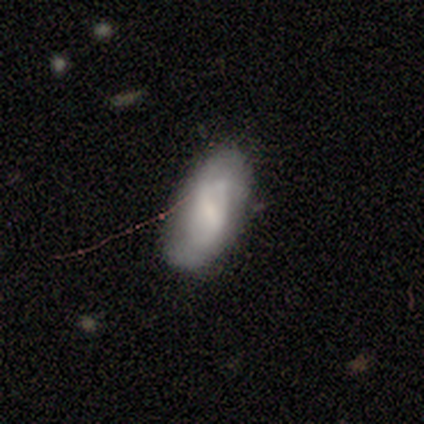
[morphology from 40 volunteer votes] Smooth or featured?
  - smooth: 57% *
  - featured or disk: 35%
  - star or artifact: 8%
How rounded?
  - in between: 91% *
  - round: 4%
  - cigar-shaped: 4%
Merging?
  - none: 68% *
  - minor disturbance: 24%
  - major disturbance: 5%
  - merger: 3%